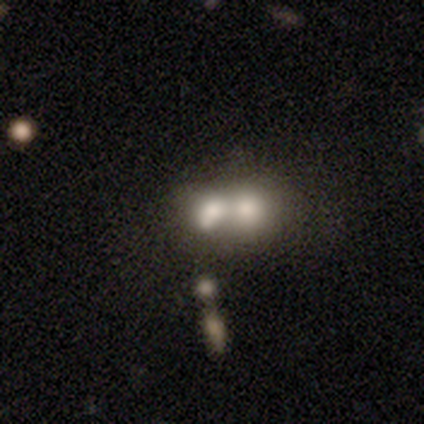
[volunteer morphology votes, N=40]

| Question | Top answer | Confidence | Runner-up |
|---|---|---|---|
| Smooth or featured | smooth | 65% | featured or disk (28%) |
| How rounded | in between | 54% | round (42%) |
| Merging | merger | 84% | none (8%) |